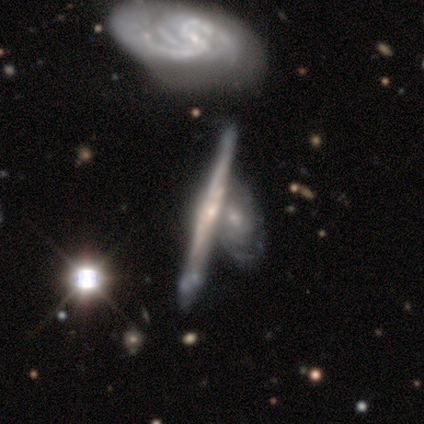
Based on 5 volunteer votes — Smooth or featured: featured or disk — 80% (smooth — 20%)
Edge-on disk: yes — 75% (no — 25%)
Edge-on bulge: none — 67% (rounded — 33%)
Merging: none — 60% (minor disturbance — 20%)